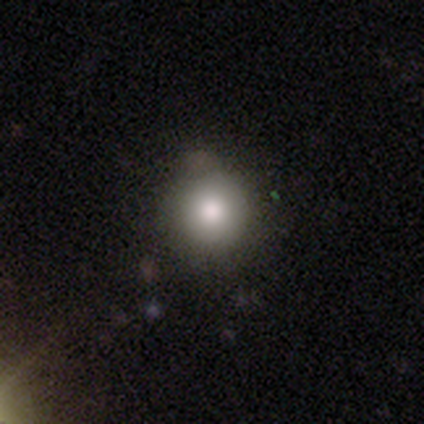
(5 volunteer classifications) A smooth galaxy with no disk features (100%) that is round (100%). Merging: none (100%).